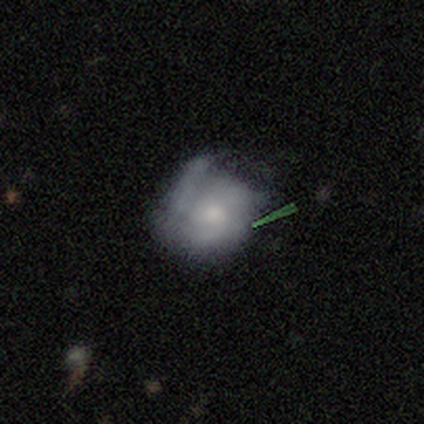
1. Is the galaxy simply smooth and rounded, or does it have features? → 62% featured or disk, 26% smooth, 12% star or artifact.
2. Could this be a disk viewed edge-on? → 98% no, 2% yes.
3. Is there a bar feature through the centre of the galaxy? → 90% no, 10% weak, 0% strong.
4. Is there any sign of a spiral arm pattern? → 66% yes, 34% no.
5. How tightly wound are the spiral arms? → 55% medium, 24% tight, 21% loose.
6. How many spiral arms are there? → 48% 3, 24% 2, 15% can't tell, 6% 1, 3% 4, 3% more than 4.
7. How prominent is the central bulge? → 48% moderate, 36% small, 10% large, 6% none, 0% dominant.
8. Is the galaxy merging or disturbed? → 50% none, 32% minor disturbance, 15% major disturbance, 3% merger.